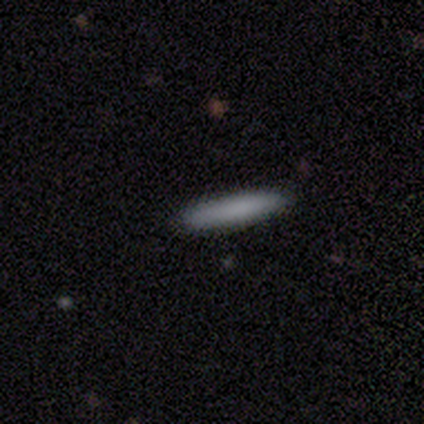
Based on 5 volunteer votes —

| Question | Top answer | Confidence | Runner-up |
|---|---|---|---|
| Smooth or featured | smooth | 80% | featured or disk (20%) |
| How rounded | cigar-shaped | 100% | — |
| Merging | none | 100% | — |